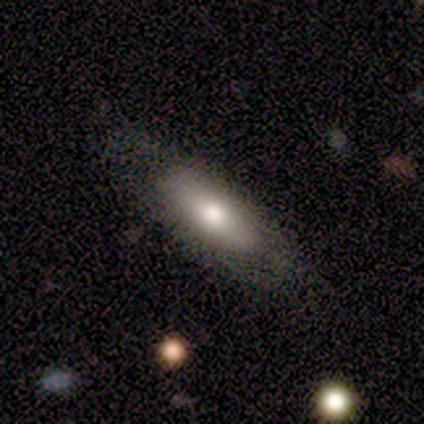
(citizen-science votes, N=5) This appears to be a smooth galaxy with no disk features (60%) that is in between round and cigar-shaped (67%). Merging: none (80%).